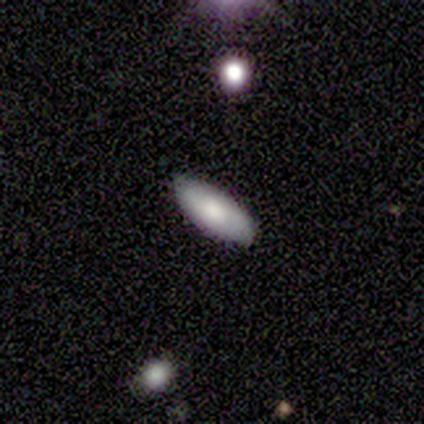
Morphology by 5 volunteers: Overall: smooth (80%). How rounded: in between (50%, tied with cigar-shaped). Merging: none (50%; minor disturbance 25%).